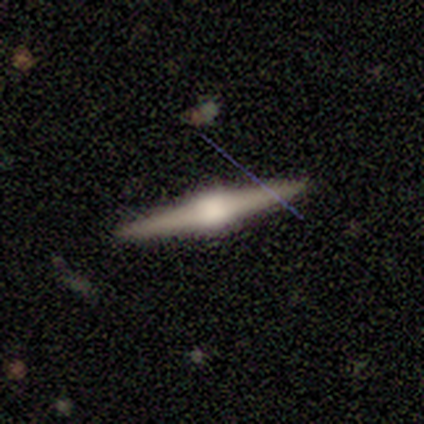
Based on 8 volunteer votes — A featured or disk galaxy (88%) viewed edge-on (100%) with a rounded central bulge (100%).

Vote fractions:
- Smooth or featured? featured or disk: 88% / smooth: 12% / star or artifact: 0%
- Edge-on disk? yes: 100% / no: 0%
- Edge-on bulge? rounded: 100% / boxy: 0% / none: 0%
- Merging? none: 88% / minor disturbance: 12% / major disturbance: 0% / merger: 0%